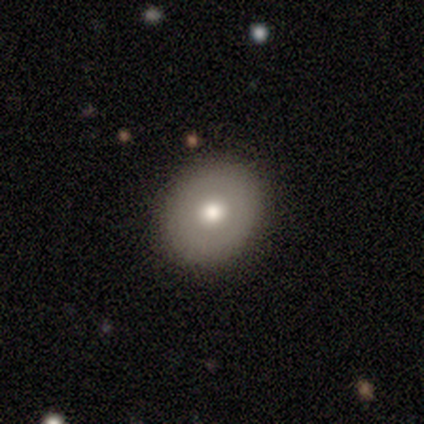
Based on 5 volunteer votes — smooth_or_featured: smooth (p=0.80) [alt: star or artifact p=0.20]
how_rounded: round (p=1.00)
merging: none (p=1.00)